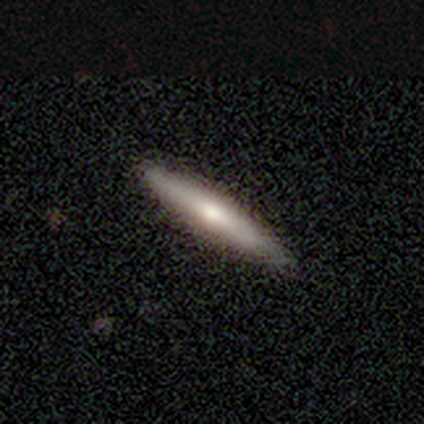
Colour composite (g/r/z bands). It shows a smooth galaxy with no disk features (58%) that is cigar-shaped (86%). Merging: none (84%).